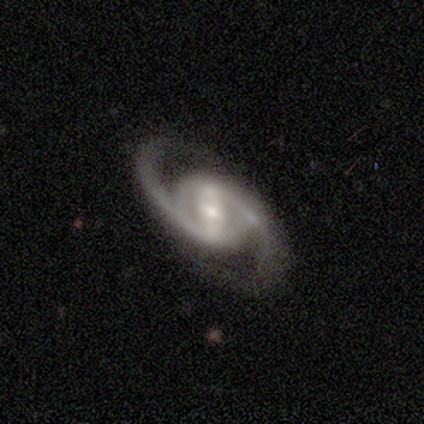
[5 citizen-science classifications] A featured or disk galaxy (100%) with a weak bar (60%), 2 (100%) medium (60%) spiral arms (100%) and a small central bulge (60%).

Vote fractions:
- Smooth or featured? featured or disk: 100% / smooth: 0% / star or artifact: 0%
- Edge-on disk? no: 100% / yes: 0%
- Bar? weak: 60% / strong: 20% / no: 20%
- Spiral arms? yes: 100% / no: 0%
- Spiral winding? medium: 60% / tight: 20% / loose: 20%
- Spiral arm count? 2: 100% / 1: 0% / 3: 0% / 4: 0% / more than 4: 0% / can't tell: 0%
- Bulge size? small: 60% / dominant: 20% / moderate: 20% / large: 0% / none: 0%
- Merging? none: 60% / minor disturbance: 20% / major disturbance: 20% / merger: 0%